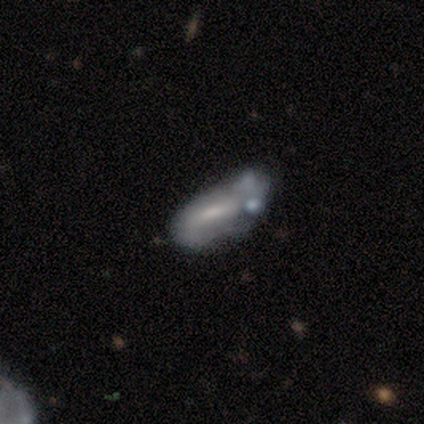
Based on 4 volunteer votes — smooth-or-featured: featured or disk: 50% | smooth: 25% | star or artifact: 25%
  disk-edge-on: yes: 50% (tied) | no: 50% (tied)
    edge-on-bulge: rounded: 100% | boxy: 0% | none: 0%
  merging: minor disturbance: 33% (tied) | major disturbance: 33% (tied) | merger: 33% (tied) | none: 0%